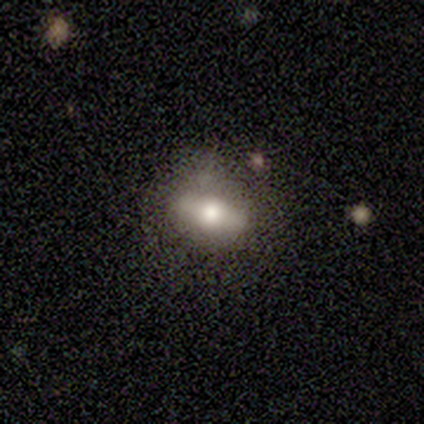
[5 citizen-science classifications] Q: Smooth or featured?
A: featured or disk (60%); runner-up: smooth (40%)
Q: Edge-on disk?
A: no (100%)
Q: Bar?
A: strong (67%); runner-up: no (33%)
Q: Spiral arms?
A: no (100%)
Q: Bulge size?
A: moderate (100%)
Q: Merging?
A: none (80%); runner-up: minor disturbance (20%)